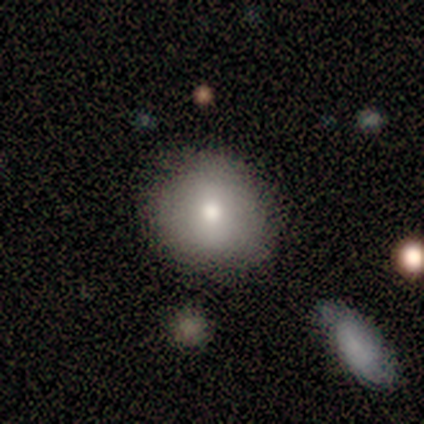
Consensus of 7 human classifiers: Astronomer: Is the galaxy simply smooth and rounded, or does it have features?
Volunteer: smooth — 71%.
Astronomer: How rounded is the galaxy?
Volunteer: round — 80%.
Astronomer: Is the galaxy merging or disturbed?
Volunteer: none — 83%.